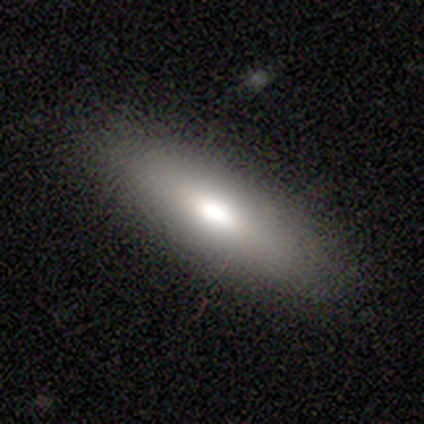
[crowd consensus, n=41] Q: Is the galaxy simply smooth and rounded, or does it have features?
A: smooth — 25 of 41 (61%).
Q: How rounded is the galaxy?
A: in between — 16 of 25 (64%).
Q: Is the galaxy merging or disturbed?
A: none — 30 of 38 (79%).